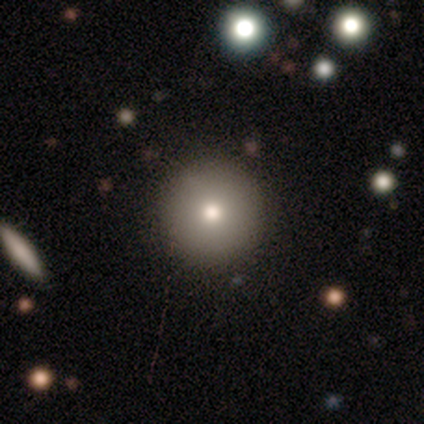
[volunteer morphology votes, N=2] type=smooth (50%, tied with star or artifact); roundness=round (100%); merging=none (100%).